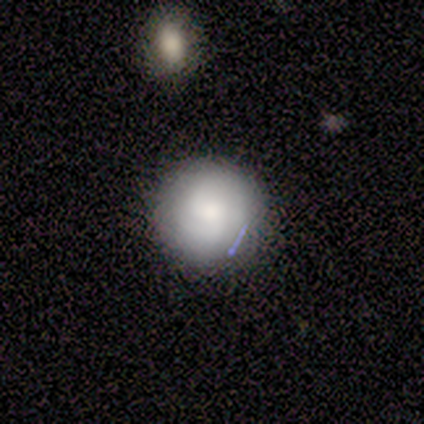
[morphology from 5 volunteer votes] Smooth or featured? smooth (80%)
How rounded? round (100%)
Merging? none (100%)